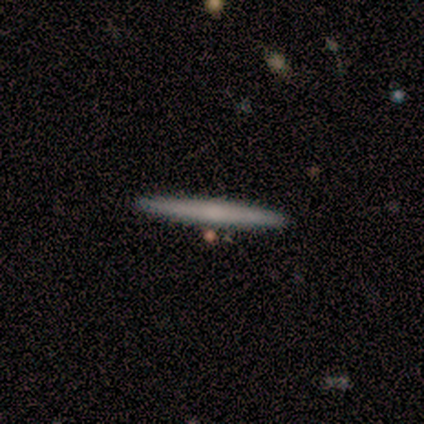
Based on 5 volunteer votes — Smooth or featured? featured or disk (60%)
Edge-on disk? yes (100%)
Edge-on bulge? none (100%)
Merging? none (75%)